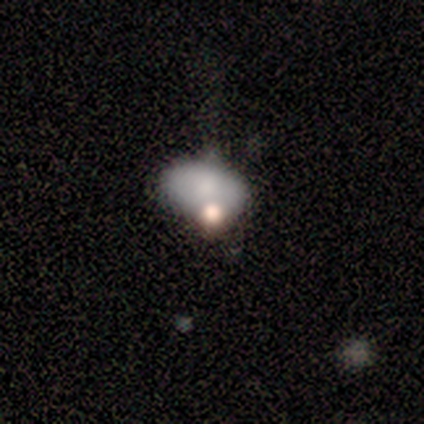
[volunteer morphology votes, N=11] This is clearly a smooth galaxy (82%). How rounded: likely in between (78%). Merging: marginally none (36%, tied with minor disturbance).